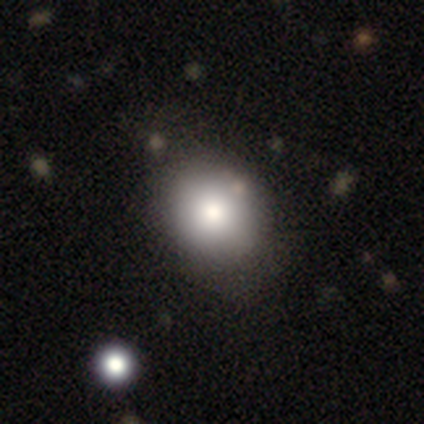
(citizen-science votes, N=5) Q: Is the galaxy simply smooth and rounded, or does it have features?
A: smooth — 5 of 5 (100%).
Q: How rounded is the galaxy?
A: round — 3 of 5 (60%).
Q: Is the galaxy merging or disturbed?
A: none — 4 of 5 (80%).